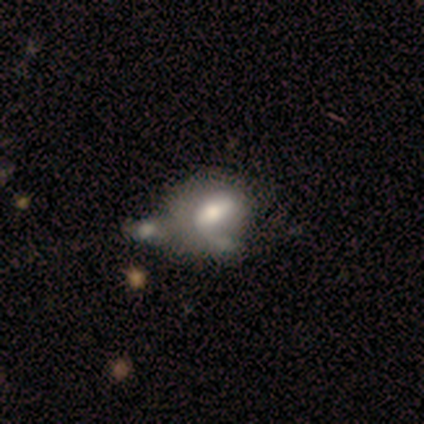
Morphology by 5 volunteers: A smooth galaxy with no disk features (80%) that is in between round and cigar-shaped (100%). Merging: merger (50%).